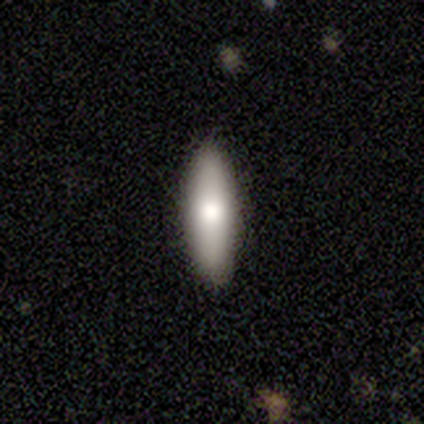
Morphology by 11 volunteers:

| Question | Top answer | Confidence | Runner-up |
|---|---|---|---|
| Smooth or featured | smooth | 64% | featured or disk (36%) |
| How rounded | cigar-shaped | 57% | in between (43%) |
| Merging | none | 91% | minor disturbance (9%) |